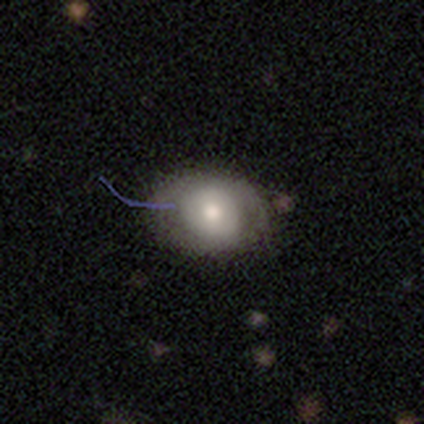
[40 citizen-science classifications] A smooth galaxy with no disk features (68%) that is in between round and cigar-shaped (67%). Merging: none (42%).